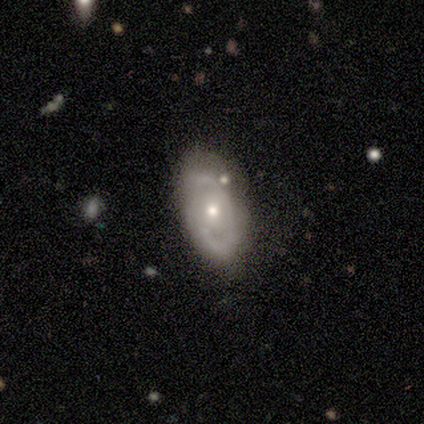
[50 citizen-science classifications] Smooth or featured? 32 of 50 (64%) said featured or disk. Edge-on disk? 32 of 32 (100%) said no. Bar? 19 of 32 (59%) said no. Spiral arms? 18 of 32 (56%) said yes. Spiral winding? 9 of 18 (50%) said tight. Spiral arm count? 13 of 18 (72%) said 2. Bulge size? 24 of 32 (75%) said moderate. Merging? 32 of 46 (70%) said none.